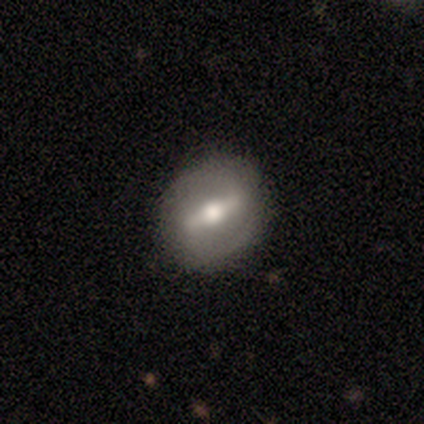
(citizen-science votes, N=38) Overall: featured or disk (71%). Edge-on disk: no (74%). Bar: strong (60%; weak 35%). Spiral arms: no (55%; yes 45%). Bulge size: moderate (55%; large 30%). Merging: none (86%).